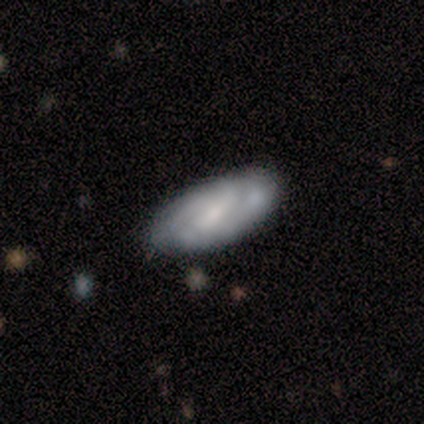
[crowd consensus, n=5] This appears to be a smooth galaxy with no disk features (60%) that is in between round and cigar-shaped (100%). Merging: none (60%).